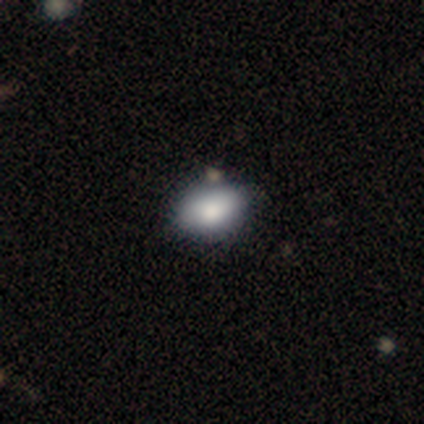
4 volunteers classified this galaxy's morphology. Smooth or featured? smooth (100%)
How rounded? in between (100%)
Merging? none (75%)